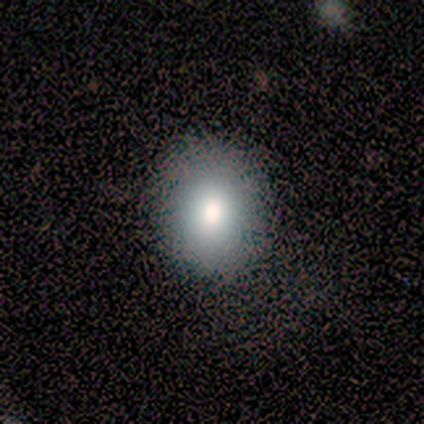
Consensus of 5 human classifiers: smooth-or-featured: smooth: 100% | featured or disk: 0% | star or artifact: 0%
  how-rounded: round: 80% | in between: 20% | cigar-shaped: 0%
  merging: none: 100% | minor disturbance: 0% | major disturbance: 0% | merger: 0%